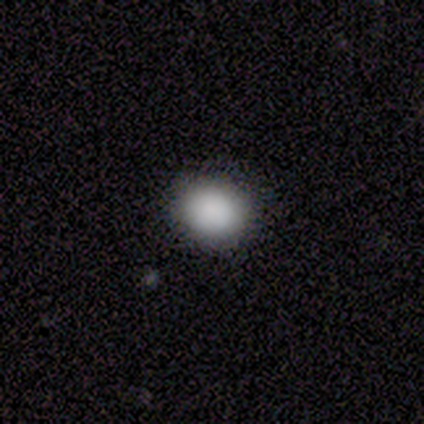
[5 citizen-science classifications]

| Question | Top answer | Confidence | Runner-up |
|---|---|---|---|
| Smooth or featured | smooth | 100% | — |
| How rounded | in between | 100% | — |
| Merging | none | 100% | — |